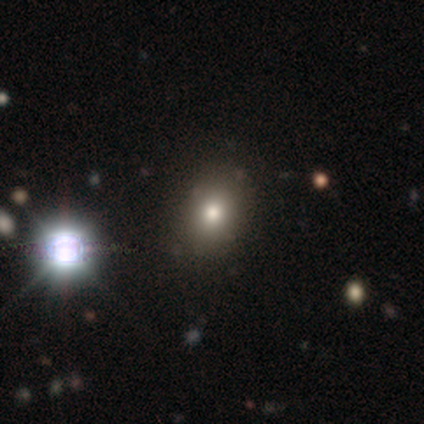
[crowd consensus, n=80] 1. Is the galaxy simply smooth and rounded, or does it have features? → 69% smooth, 22% star or artifact, 9% featured or disk.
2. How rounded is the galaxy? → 73% in between, 25% round, 2% cigar-shaped.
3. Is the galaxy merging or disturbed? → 40% none, 10% minor disturbance, 3% merger, 0% major disturbance.